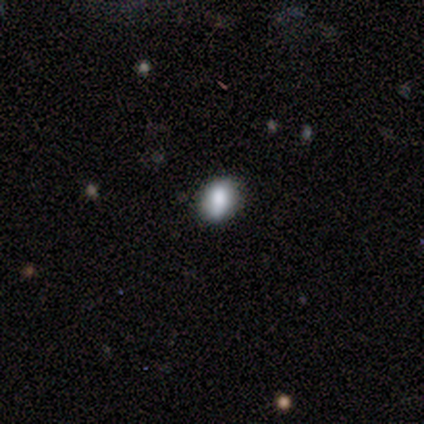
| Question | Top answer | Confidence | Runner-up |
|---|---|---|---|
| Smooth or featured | smooth | 75% | featured or disk (12%) |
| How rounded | round | 50% | in between (33%) |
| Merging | none | 86% | minor disturbance (14%) |